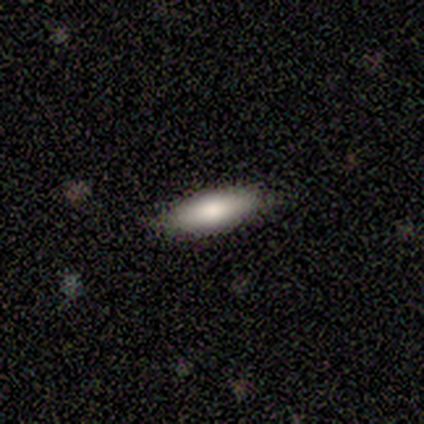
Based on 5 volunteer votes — Smooth or featured? smooth (60%)
How rounded? cigar-shaped (100%)
Merging? none (80%)